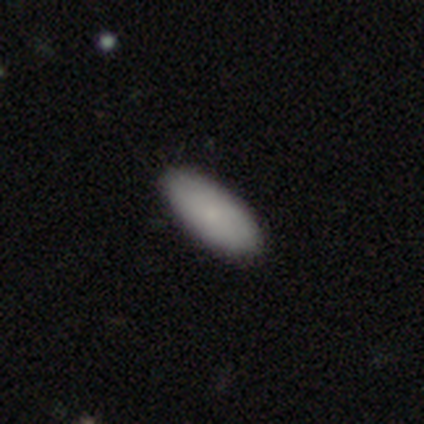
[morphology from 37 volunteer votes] type=smooth (89%); roundness=in between (85%); merging=none (91%).